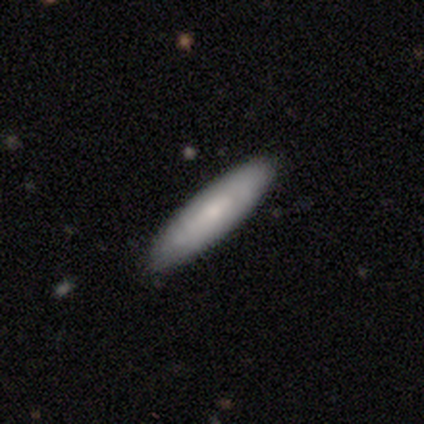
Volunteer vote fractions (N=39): Volunteers were most divided on "smooth or featured": smooth: 64%, featured or disk: 33%, star or artifact: 3%. More confident: merging — none (84%); how rounded — cigar-shaped (80%).